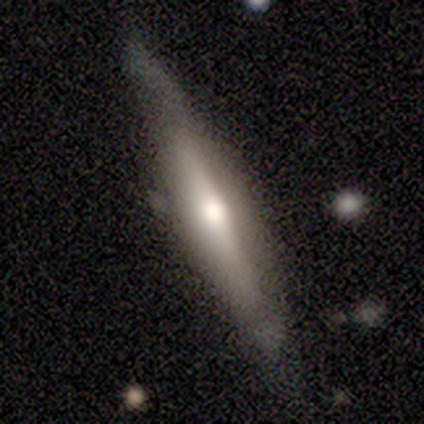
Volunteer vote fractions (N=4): smooth 50% (tied), featured or disk 50% (tied), star or artifact 0%. Down the decision tree: how rounded — cigar-shaped (100%); merging — none (100%).